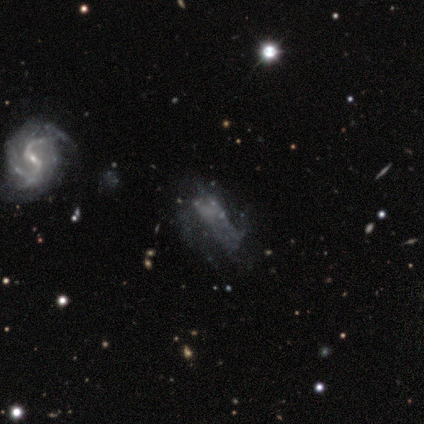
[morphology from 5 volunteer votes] Smooth or featured? 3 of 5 (60%) said smooth. How rounded? 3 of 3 (100%) said in between. Merging? 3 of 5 (60%) said major disturbance.